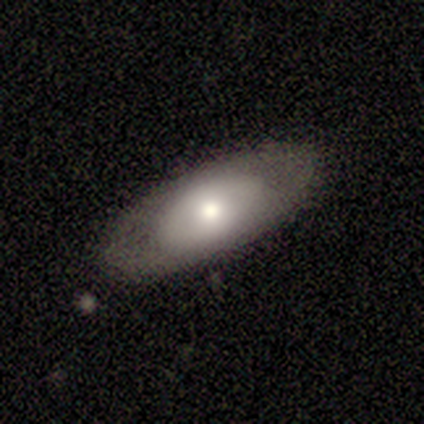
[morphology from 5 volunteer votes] A smooth galaxy with no disk features (40%, tied with featured or disk) that is in between round and cigar-shaped (100%).

Vote fractions:
- Smooth or featured? smooth: 40% (tied) / featured or disk: 40% (tied) / star or artifact: 20%
- How rounded? in between: 100% / round: 0% / cigar-shaped: 0%
- Merging? none: 100% / minor disturbance: 0% / major disturbance: 0% / merger: 0%